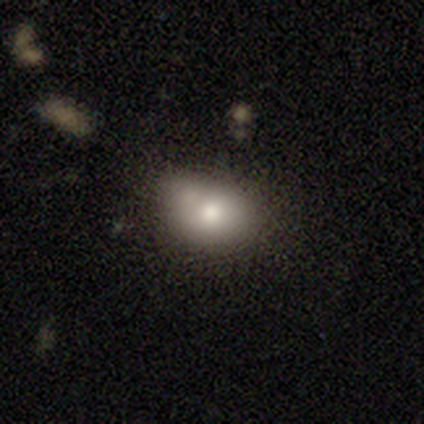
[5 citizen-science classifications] A smooth galaxy with no disk features (80%) that is round (50%, tied with in between). Merging: none (50%).